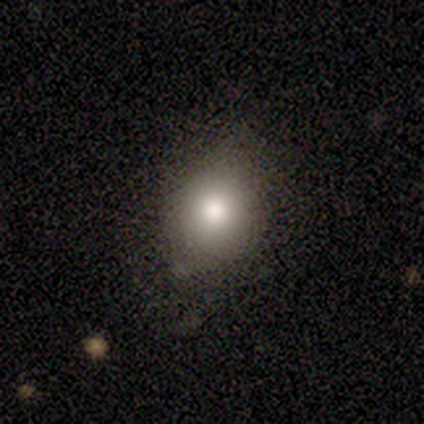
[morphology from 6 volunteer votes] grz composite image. It shows a smooth galaxy with no disk features (100%) that is round (83%). Merging: none (50%, tied with minor disturbance).